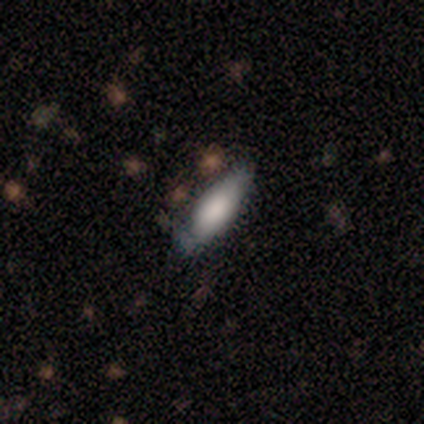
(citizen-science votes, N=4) Q: Smooth or featured?
A: smooth (100%)
Q: How rounded?
A: in between (100%)
Q: Merging?
A: none (50%); tied with: minor disturbance (50%)